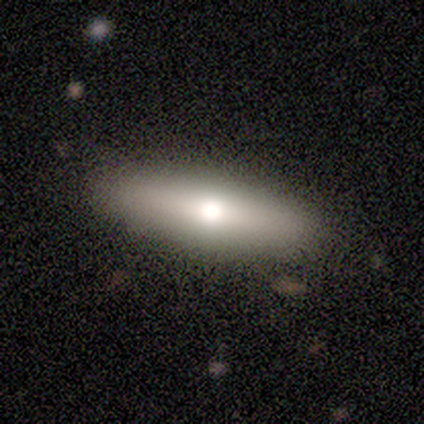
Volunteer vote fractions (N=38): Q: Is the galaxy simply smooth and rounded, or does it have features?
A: smooth — 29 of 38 (76%).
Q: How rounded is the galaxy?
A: cigar-shaped — 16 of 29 (55%).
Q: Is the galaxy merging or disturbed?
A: none — 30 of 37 (81%).